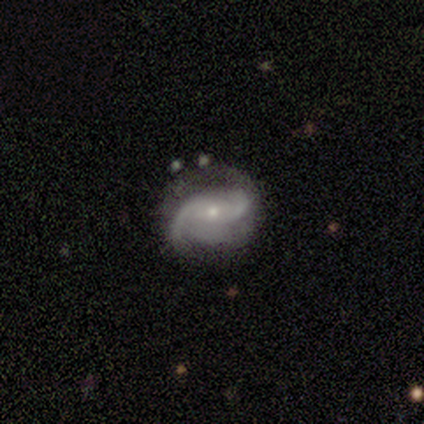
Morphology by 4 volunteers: Volunteers were most divided on "bar": weak: 50%, strong: 25%, no: 25%. More confident: smooth or featured — featured or disk (100%); edge-on disk — no (100%); spiral arms — yes (100%); spiral arm count — 2 (100%); spiral winding — medium (75%); bulge size — small (75%); merging — none (75%).